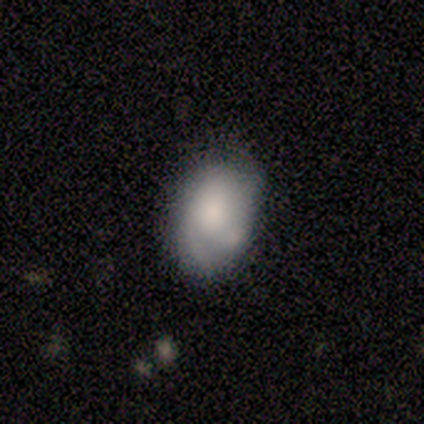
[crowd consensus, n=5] Morphology: type=smooth (80%); roundness=in between (100%); merging=none (40%).